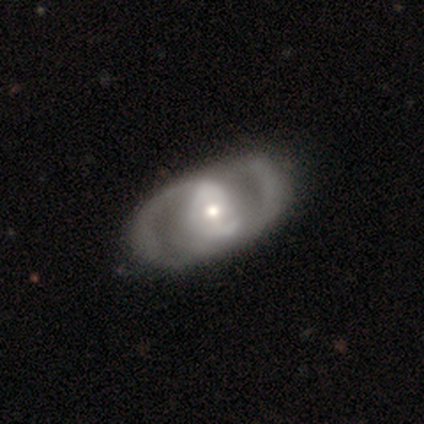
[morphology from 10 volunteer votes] Smooth or featured?
  - featured or disk: 80% *
  - star or artifact: 20%
  - smooth: 0%
Edge-on disk?
  - no: 100% *
  - yes: 0%
Bar?
  - weak: 50% *
  - no: 38%
  - strong: 12%
Spiral arms?
  - yes: 62% *
  - no: 38%
Spiral winding?
  - medium: 40% * (tied)
  - loose: 40% * (tied)
  - tight: 20%
Spiral arm count?
  - 2: 80% *
  - 4: 20%
  - 1: 0%
  - 3: 0%
  - more than 4: 0%
  - can't tell: 0%
Bulge size?
  - moderate: 50% * (tied)
  - small: 50% * (tied)
  - dominant: 0%
  - large: 0%
  - none: 0%
Merging?
  - none: 75% *
  - minor disturbance: 12%
  - merger: 12%
  - major disturbance: 0%